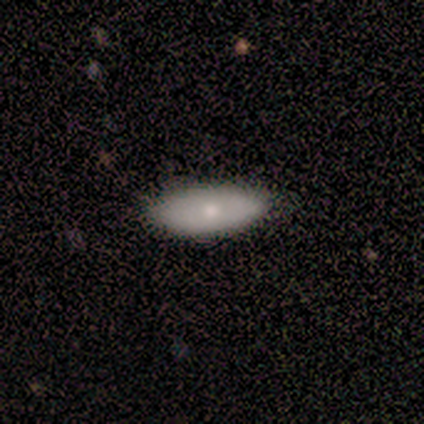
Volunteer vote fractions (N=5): A smooth galaxy with no disk features (60%) that is in between round and cigar-shaped (67%). Merging: none (100%).